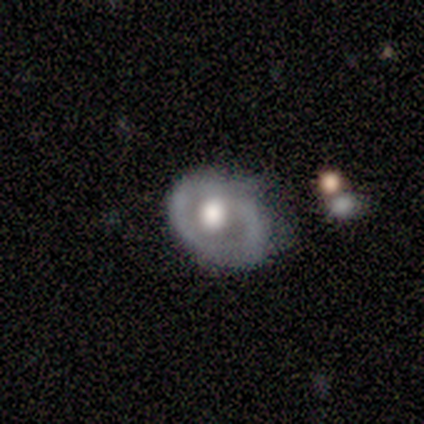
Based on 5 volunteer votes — Smooth or featured?
  - featured or disk: 60% *
  - smooth: 40%
  - star or artifact: 0%
Edge-on disk?
  - no: 100% *
  - yes: 0%
Bar?
  - no: 67% *
  - strong: 33%
  - weak: 0%
Spiral arms?
  - yes: 67% *
  - no: 33%
Spiral winding?
  - tight: 100% *
  - medium: 0%
  - loose: 0%
Spiral arm count?
  - 2: 50% * (tied)
  - 3: 50% * (tied)
  - 1: 0%
  - 4: 0%
  - more than 4: 0%
  - can't tell: 0%
Bulge size?
  - large: 67% *
  - moderate: 33%
  - dominant: 0%
  - small: 0%
  - none: 0%
Merging?
  - none: 80% *
  - major disturbance: 20%
  - minor disturbance: 0%
  - merger: 0%